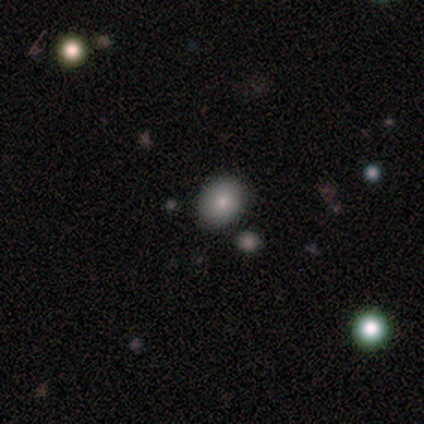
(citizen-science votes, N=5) Q: Smooth or featured?
A: smooth (100%)
Q: How rounded?
A: round (80%); runner-up: in between (20%)
Q: Merging?
A: none (100%)